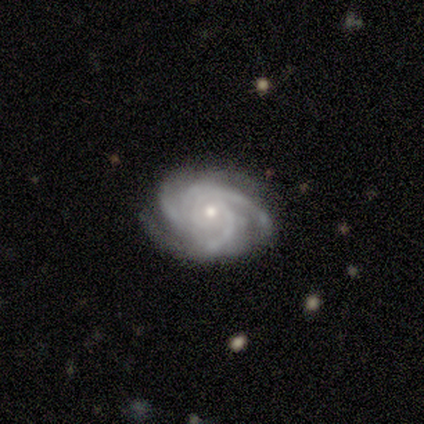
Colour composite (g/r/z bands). It shows a featured or disk galaxy (100%) with no bar (82%), 3 (55%) tight (64%) spiral arms (100%) and a small central bulge (55%). Merging: none (73%).